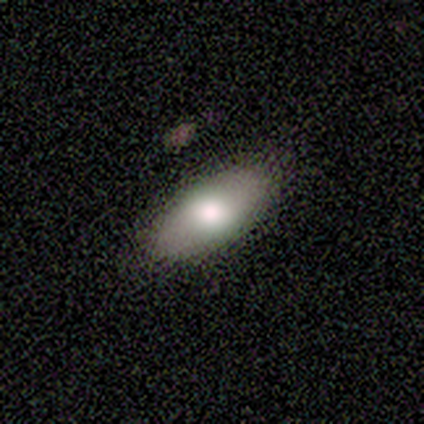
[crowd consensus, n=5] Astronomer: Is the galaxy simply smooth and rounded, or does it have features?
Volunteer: smooth — 60% (runner-up: featured or disk, 40%).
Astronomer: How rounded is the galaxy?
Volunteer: in between — 100%.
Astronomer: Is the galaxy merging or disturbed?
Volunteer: none — 100%.